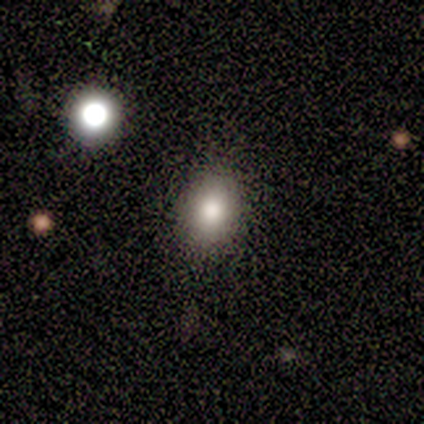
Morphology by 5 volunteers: This appears to be a smooth galaxy with no disk features (100%) that is in between round and cigar-shaped (80%). Merging: none (80%).